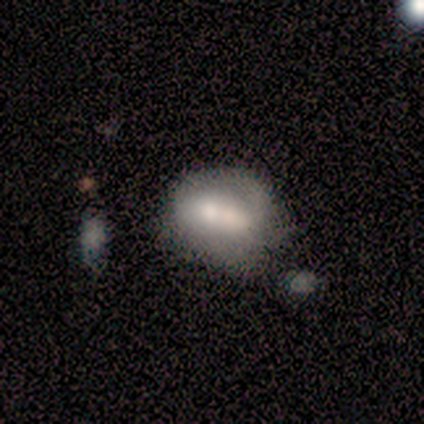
This is likely a smooth galaxy (60%). How rounded: likely in between (67%). Merging: possibly minor disturbance (50%, tied with merger).